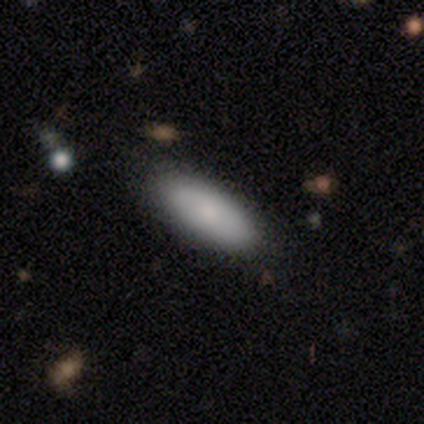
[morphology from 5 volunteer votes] Smooth or featured? 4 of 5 (80%) said smooth. How rounded? 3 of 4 (75%) said in between. Merging? 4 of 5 (80%) said none.